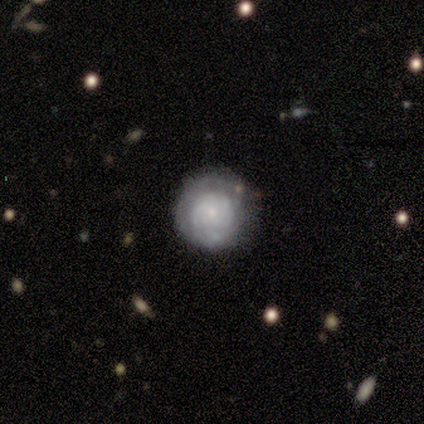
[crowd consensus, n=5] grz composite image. It shows a featured or disk galaxy (80%) with no bar (100%), 2 (50%, tied with 3) tight (50%, tied with medium) spiral arms (50%, tied with no) and a moderate central bulge (50%). Merging: none (80%).